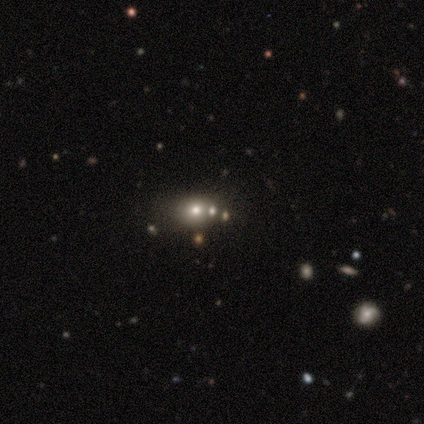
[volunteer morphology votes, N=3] Smooth or featured? smooth (67%)
How rounded? round (50%, tied with in between)
Merging? none (50%, tied with minor disturbance)